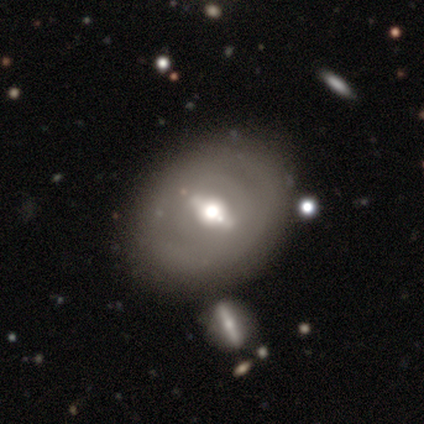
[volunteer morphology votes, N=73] Smooth or featured? 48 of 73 (66%) said featured or disk. Edge-on disk? 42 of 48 (88%) said no. Bar? 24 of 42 (57%) said strong. Spiral arms? 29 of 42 (69%) said no. Bulge size? 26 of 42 (62%) said moderate. Merging? 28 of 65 (43%) said none.